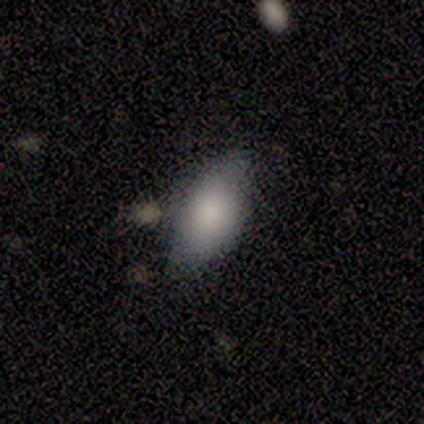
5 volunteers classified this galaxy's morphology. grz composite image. It shows a smooth galaxy with no disk features (80%) that is in between round and cigar-shaped (100%). Merging: none (60%).